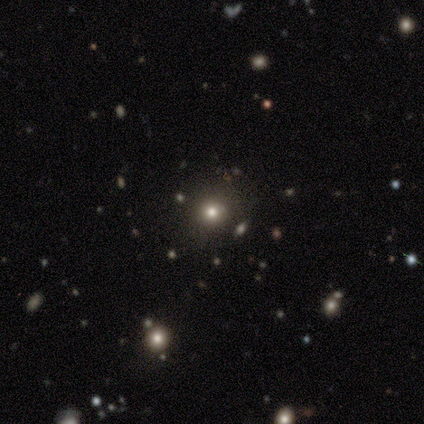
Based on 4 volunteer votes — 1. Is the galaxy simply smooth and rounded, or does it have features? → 100% smooth, 0% featured or disk, 0% star or artifact.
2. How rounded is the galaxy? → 100% round, 0% in between, 0% cigar-shaped.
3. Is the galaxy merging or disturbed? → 100% none, 0% minor disturbance, 0% major disturbance, 0% merger.